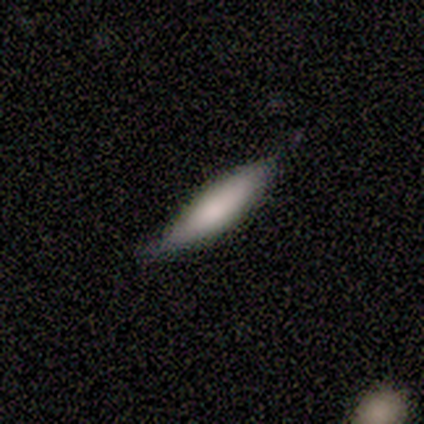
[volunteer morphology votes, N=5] smooth_or_featured: smooth (p=0.80) [alt: featured or disk p=0.20]
how_rounded: cigar-shaped (p=0.75) [alt: in between p=0.25]
merging: none (p=0.60) [alt: minor disturbance p=0.40]